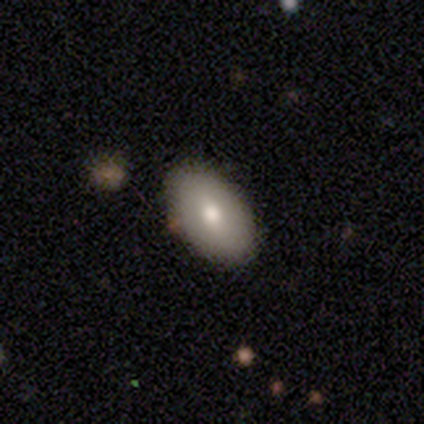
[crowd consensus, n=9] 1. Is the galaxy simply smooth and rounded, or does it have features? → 89% smooth, 11% featured or disk, 0% star or artifact.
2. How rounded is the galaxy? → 75% in between, 12% round, 12% cigar-shaped.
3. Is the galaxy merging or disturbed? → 100% none, 0% minor disturbance, 0% major disturbance, 0% merger.